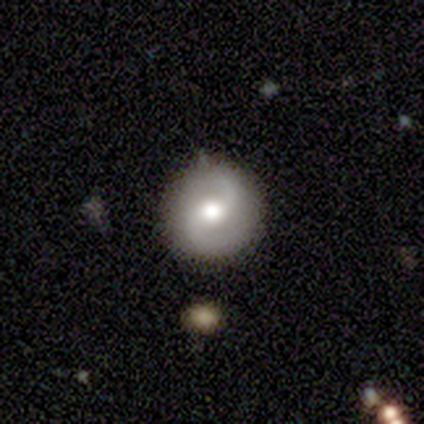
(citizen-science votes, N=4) This appears to be a featured or disk galaxy (75%) with a weak bar (67%), 2 (100%) tight (67%) spiral arms (100%) and a large central bulge (67%). Merging: none (75%).